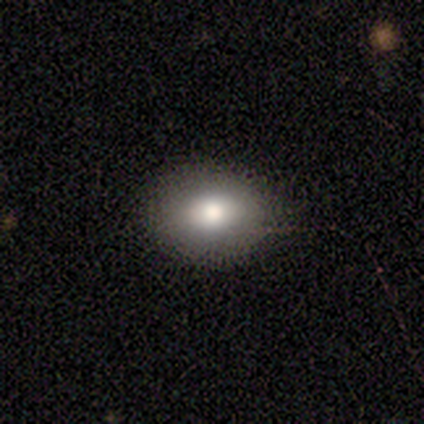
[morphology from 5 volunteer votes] This appears to be a smooth galaxy with no disk features (80%) that is round (50%, tied with in between). Merging: none (60%).